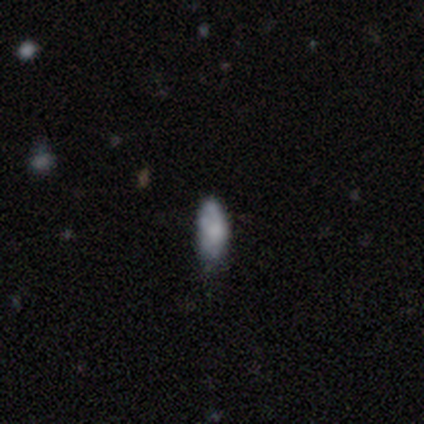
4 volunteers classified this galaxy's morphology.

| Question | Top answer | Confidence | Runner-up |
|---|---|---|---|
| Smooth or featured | smooth | 100% | — |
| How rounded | in between | 100% | — |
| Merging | none | 50% | minor disturbance (25%) |